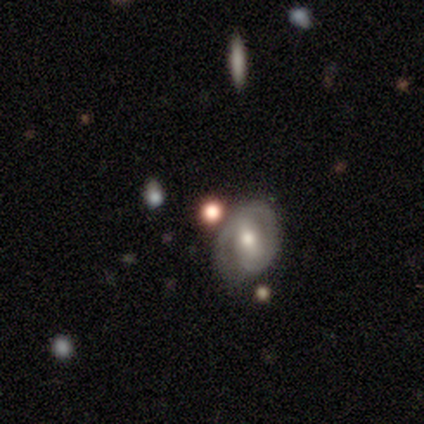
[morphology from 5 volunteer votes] smooth_or_featured: smooth (p=0.40) [tied with: featured or disk p=0.40]
how_rounded: round (p=0.50) [tied with: in between p=0.50]
merging: none (p=1.00)